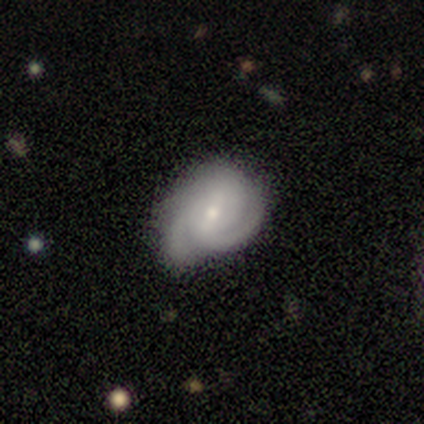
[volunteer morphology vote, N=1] A star or artifact, not a galaxy (100%).